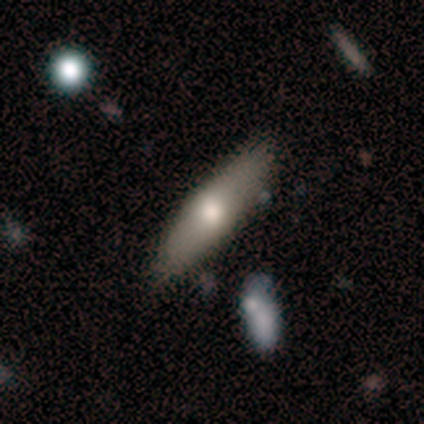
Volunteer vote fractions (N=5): Q: Smooth or featured?
A: smooth (100%)
Q: How rounded?
A: cigar-shaped (80%); runner-up: in between (20%)
Q: Merging?
A: none (80%); runner-up: minor disturbance (20%)